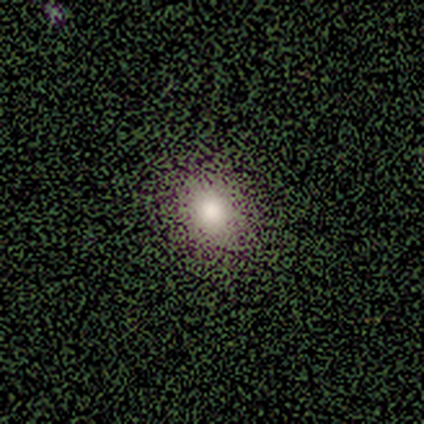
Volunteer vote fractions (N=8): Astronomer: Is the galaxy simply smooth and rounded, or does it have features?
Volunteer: smooth — 75%.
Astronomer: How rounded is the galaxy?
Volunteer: round — 83%.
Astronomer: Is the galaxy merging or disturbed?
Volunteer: none — 100%.